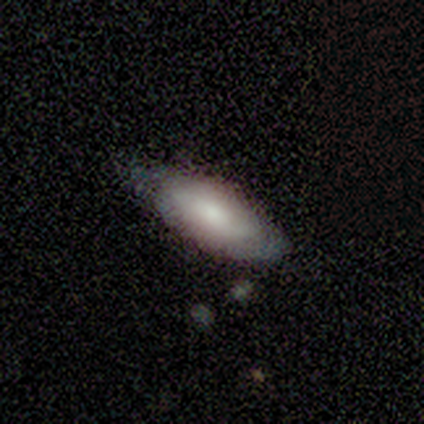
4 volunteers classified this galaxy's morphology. Q: Smooth or featured?
A: smooth (50%); tied with: featured or disk (50%)
Q: How rounded?
A: in between (100%)
Q: Merging?
A: none (75%); runner-up: minor disturbance (25%)